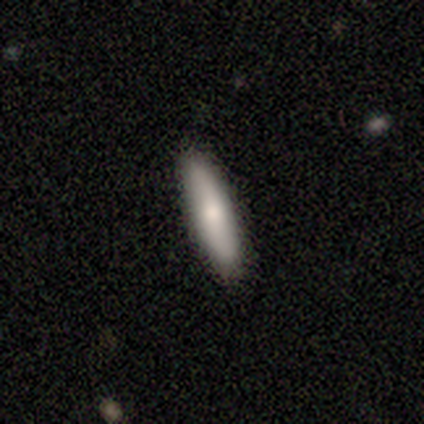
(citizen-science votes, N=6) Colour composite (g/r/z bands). It shows a smooth galaxy with no disk features (83%) that is cigar-shaped (100%). Merging: none (100%).